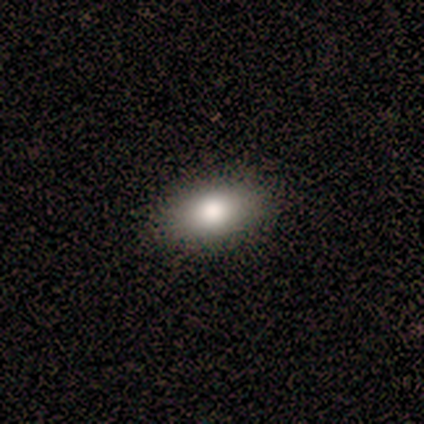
This appears to be a smooth galaxy with no disk features (100%) that is in between round and cigar-shaped (80%). Merging: none (100%).